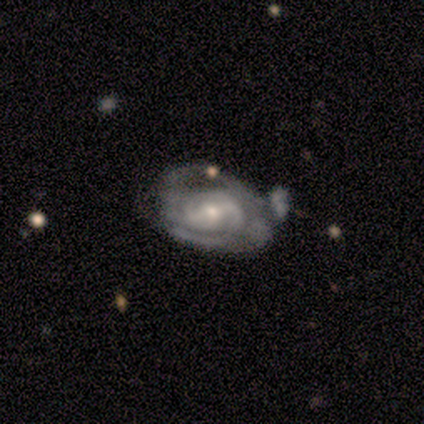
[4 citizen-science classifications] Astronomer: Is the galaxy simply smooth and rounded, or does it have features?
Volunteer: featured or disk — 100%.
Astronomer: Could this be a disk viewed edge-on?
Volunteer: no — 100%.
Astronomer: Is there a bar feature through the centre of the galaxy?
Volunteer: strong — 75%.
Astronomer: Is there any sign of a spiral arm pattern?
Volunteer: yes — 100%.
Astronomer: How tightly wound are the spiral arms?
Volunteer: tight — 75%.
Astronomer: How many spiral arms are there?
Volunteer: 2 — 100%.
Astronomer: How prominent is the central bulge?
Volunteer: small — 75%.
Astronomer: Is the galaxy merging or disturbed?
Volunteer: minor disturbance — 75%.